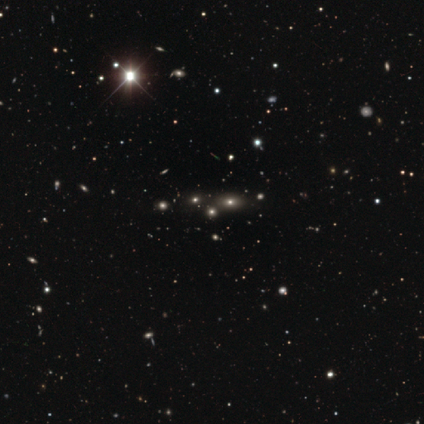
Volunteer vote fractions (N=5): This is clearly a star or artifact rather than a galaxy (80%).